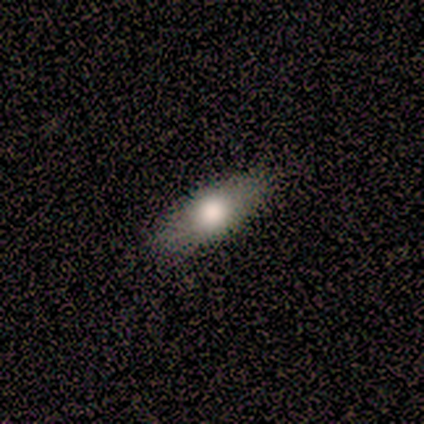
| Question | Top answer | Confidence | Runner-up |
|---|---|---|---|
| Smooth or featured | featured or disk | 60% | smooth (40%) |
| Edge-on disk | no | 100% | — |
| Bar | no | 67% | strong (33%) |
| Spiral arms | yes | 67% | no (33%) |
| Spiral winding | tight | 50% | tied: loose (50%) |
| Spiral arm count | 2 | 100% | — |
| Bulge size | large | 33% | tied: moderate (33%), none (33%) |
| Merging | none | 80% | minor disturbance (20%) |